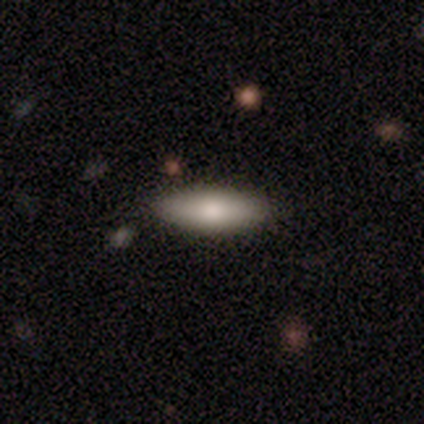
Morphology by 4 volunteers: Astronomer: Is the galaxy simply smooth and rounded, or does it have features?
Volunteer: smooth — 75%.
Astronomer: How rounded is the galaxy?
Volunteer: in between — 100%.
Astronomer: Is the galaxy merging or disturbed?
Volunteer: none — 75%.